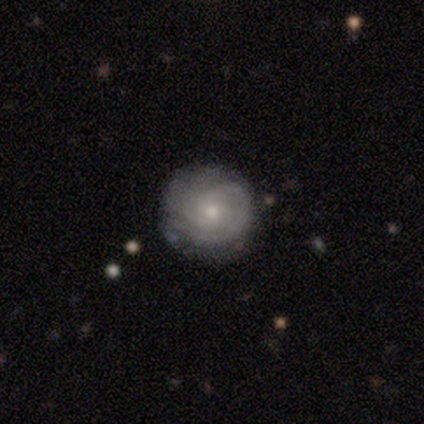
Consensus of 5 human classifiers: Q: Smooth or featured?
A: featured or disk (60%); runner-up: smooth (20%)
Q: Edge-on disk?
A: no (100%)
Q: Bar?
A: no (100%)
Q: Spiral arms?
A: yes (100%)
Q: Spiral winding?
A: tight (67%); runner-up: medium (33%)
Q: Spiral arm count?
A: 2 (67%); runner-up: 4 (33%)
Q: Bulge size?
A: small (100%)
Q: Merging?
A: none (100%)